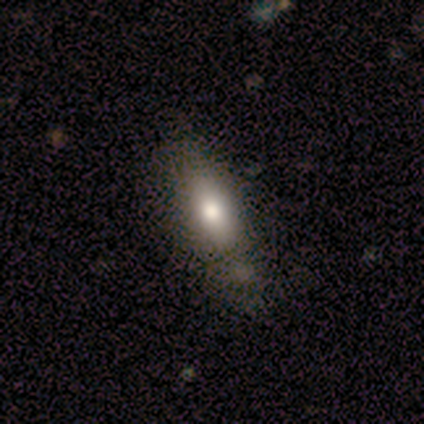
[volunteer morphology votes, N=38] A smooth galaxy with no disk features (71%) that is in between round and cigar-shaped (56%).

Vote fractions:
- Smooth or featured? smooth: 71% / featured or disk: 21% / star or artifact: 8%
- How rounded? in between: 56% / cigar-shaped: 44% / round: 0%
- Merging? none: 49% / minor disturbance: 17% / merger: 17% / major disturbance: 0%